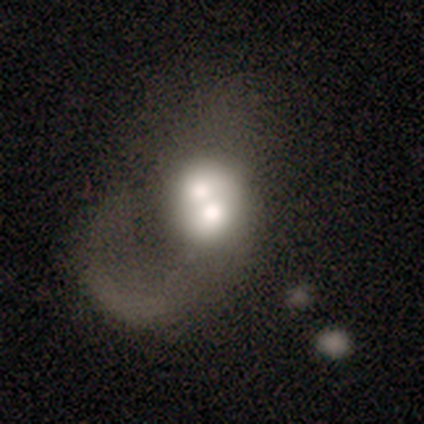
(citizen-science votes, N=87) Volunteers were most divided on "spiral arms": no: 52%, yes: 48%. Remaining: edge-on disk — no (96%); bar — no (75%); merging — merger (59%); smooth or featured — featured or disk (53%); bulge size — moderate (45%).